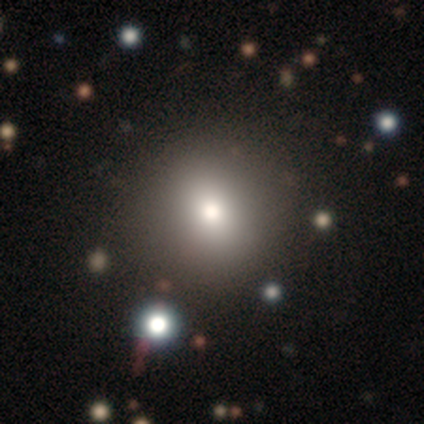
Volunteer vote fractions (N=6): Smooth or featured? 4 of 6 (67%) said smooth. How rounded? 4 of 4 (100%) said round. Merging? 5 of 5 (100%) said none.